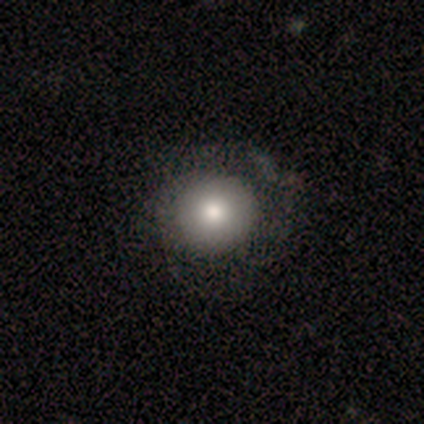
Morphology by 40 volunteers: Smooth or featured? smooth (75%)
How rounded? round (80%)
Merging? none (42%)